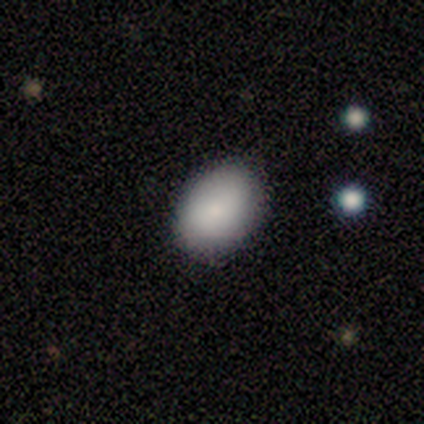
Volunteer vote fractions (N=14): Overall: smooth (93%). How rounded: in between (62%; round 38%). Merging: none (93%).